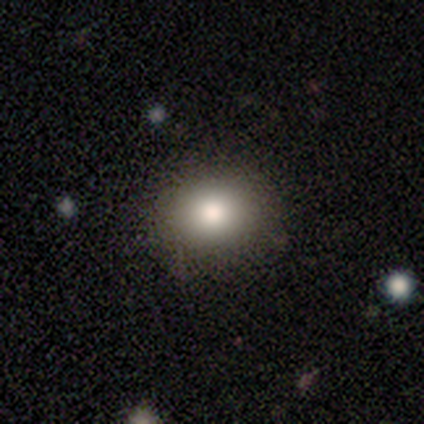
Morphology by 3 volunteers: Smooth or featured? smooth (67%)
How rounded? round (100%)
Merging? none (50%, tied with minor disturbance)